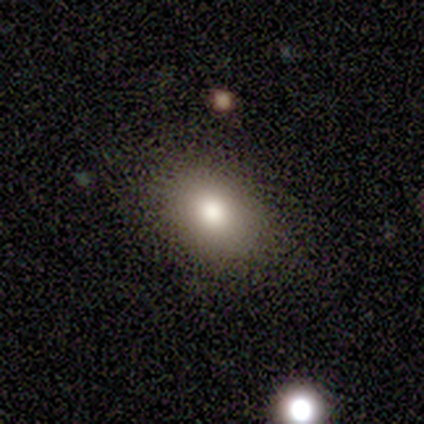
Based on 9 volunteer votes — Smooth or featured? 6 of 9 (67%) said smooth. How rounded? 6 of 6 (100%) said in between. Merging? 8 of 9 (89%) said none.